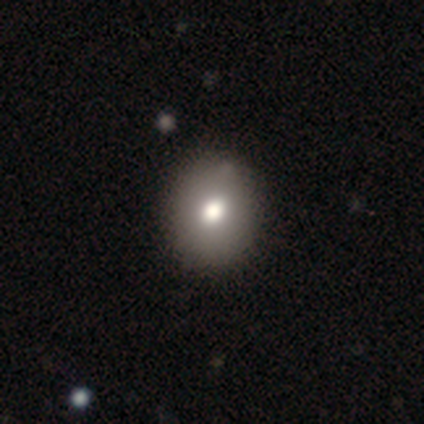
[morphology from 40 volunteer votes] Q: Smooth or featured?
A: smooth (72%); runner-up: featured or disk (18%)
Q: How rounded?
A: round (59%); runner-up: in between (41%)
Q: Merging?
A: none (89%); runner-up: minor disturbance (11%)